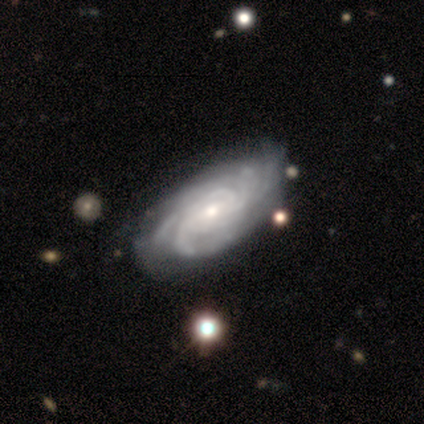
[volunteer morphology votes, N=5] Smooth or featured?
  - featured or disk: 100% *
  - smooth: 0%
  - star or artifact: 0%
Edge-on disk?
  - no: 100% *
  - yes: 0%
Bar?
  - no: 60% *
  - weak: 40%
  - strong: 0%
Spiral arms?
  - yes: 100% *
  - no: 0%
Spiral winding?
  - tight: 60% *
  - medium: 40%
  - loose: 0%
Spiral arm count?
  - more than 4: 40% * (tied)
  - can't tell: 40% * (tied)
  - 4: 20%
  - 1: 0%
  - 2: 0%
  - 3: 0%
Bulge size?
  - small: 60% *
  - moderate: 40%
  - dominant: 0%
  - large: 0%
  - none: 0%
Merging?
  - none: 80% *
  - minor disturbance: 20%
  - major disturbance: 0%
  - merger: 0%